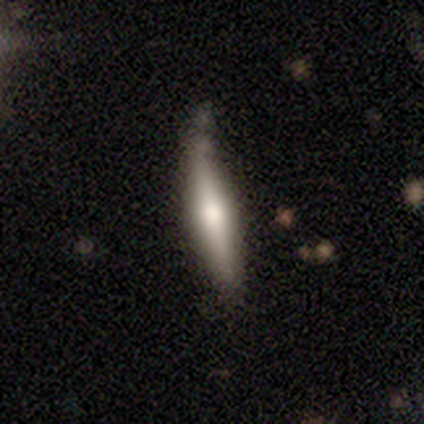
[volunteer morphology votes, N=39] smooth-or-featured: featured or disk: 59% | smooth: 33% | star or artifact: 8%
  disk-edge-on: yes: 78% | no: 22%
    edge-on-bulge: rounded: 83% | boxy: 17% | none: 0%
  merging: none: 61% | minor disturbance: 31% | merger: 8% | major disturbance: 0%